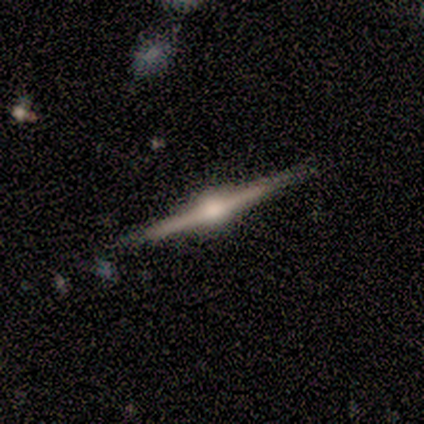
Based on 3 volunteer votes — Q: Smooth or featured?
A: featured or disk (100%)
Q: Edge-on disk?
A: yes (100%)
Q: Edge-on bulge?
A: rounded (100%)
Q: Merging?
A: none (100%)